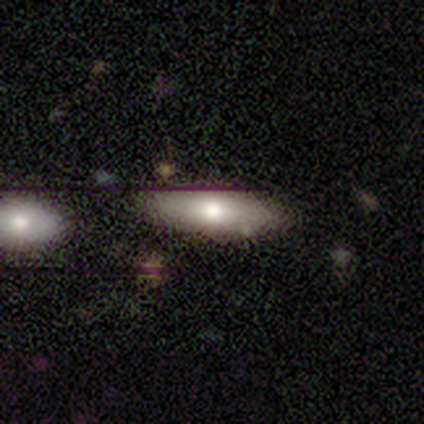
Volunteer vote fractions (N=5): A featured or disk galaxy (60%) with no bar (100%), no spiral arms (100%) and a moderate central bulge (100%).

Vote fractions:
- Smooth or featured? featured or disk: 60% / smooth: 40% / star or artifact: 0%
- Edge-on disk? no: 67% / yes: 33%
- Bar? no: 100% / strong: 0% / weak: 0%
- Spiral arms? no: 100% / yes: 0%
- Bulge size? moderate: 100% / dominant: 0% / large: 0% / small: 0% / none: 0%
- Merging? none: 80% / minor disturbance: 20% / major disturbance: 0% / merger: 0%